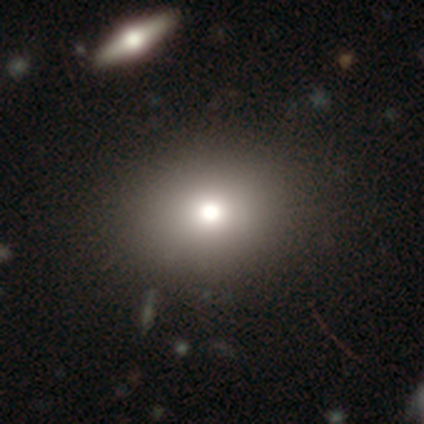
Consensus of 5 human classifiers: A smooth galaxy with no disk features (80%) that is round (50%, tied with in between).

Vote fractions:
- Smooth or featured? smooth: 80% / featured or disk: 20% / star or artifact: 0%
- How rounded? round: 50% (tied) / in between: 50% (tied) / cigar-shaped: 0%
- Merging? none: 100% / minor disturbance: 0% / major disturbance: 0% / merger: 0%